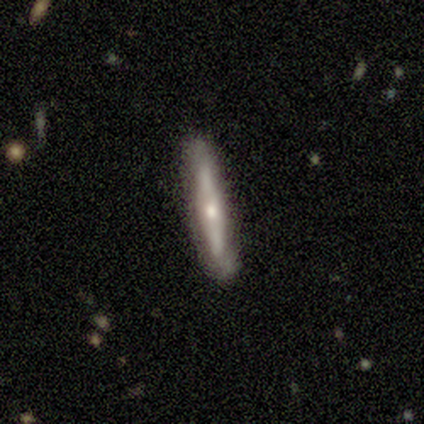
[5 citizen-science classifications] Smooth or featured?
  - featured or disk: 100% *
  - smooth: 0%
  - star or artifact: 0%
Edge-on disk?
  - yes: 80% *
  - no: 20%
Edge-on bulge?
  - rounded: 75% *
  - none: 25%
  - boxy: 0%
Merging?
  - none: 80% *
  - merger: 20%
  - minor disturbance: 0%
  - major disturbance: 0%